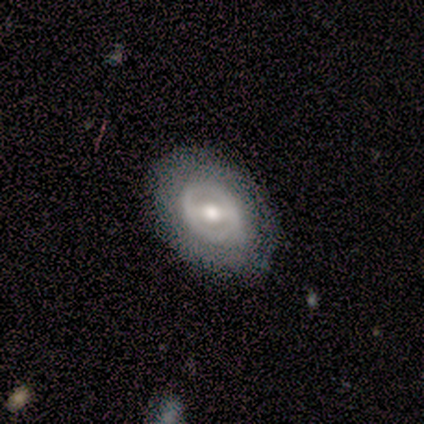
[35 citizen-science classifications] smooth_or_featured: featured or disk (p=0.71) [alt: smooth p=0.20]
disk_edge_on: no (p=0.96) [alt: yes p=0.04]
bar: strong (p=0.54) [alt: weak p=0.33]
has_spiral_arms: no (p=0.62) [alt: yes p=0.38]
bulge_size: moderate (p=0.58) [alt: large p=0.21]
merging: none (p=0.84) [alt: minor disturbance p=0.12]